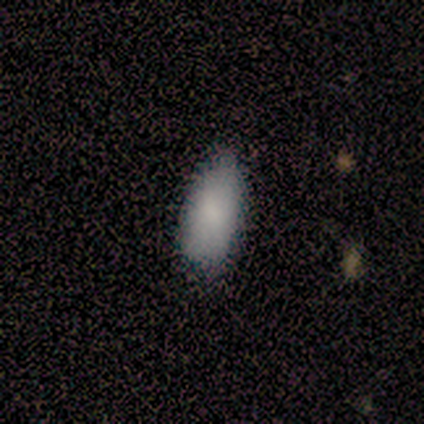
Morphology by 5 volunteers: Smooth or featured?
  - smooth: 100% *
  - featured or disk: 0%
  - star or artifact: 0%
How rounded?
  - in between: 100% *
  - round: 0%
  - cigar-shaped: 0%
Merging?
  - none: 100% *
  - minor disturbance: 0%
  - major disturbance: 0%
  - merger: 0%